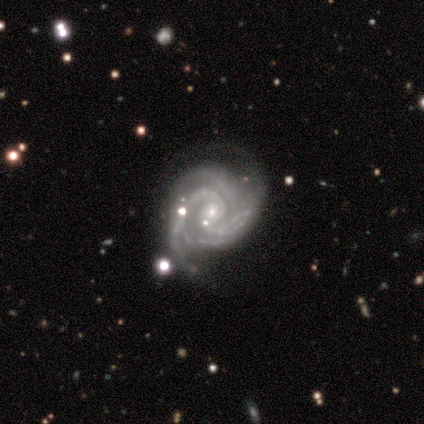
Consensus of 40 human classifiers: Smooth or featured? featured or disk (95%)
Edge-on disk? no (100%)
Bar? no (74%)
Spiral arms? yes (97%)
Spiral winding? tight (65%)
Spiral arm count? 2 (32%)
Bulge size? small (89%)
Merging? none (50%)